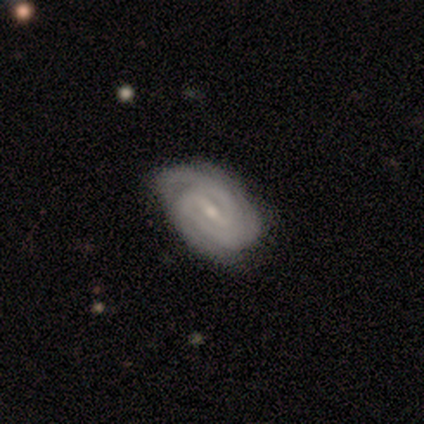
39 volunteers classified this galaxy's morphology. Q: Smooth or featured?
A: featured or disk (87%); runner-up: smooth (8%)
Q: Edge-on disk?
A: no (97%); runner-up: yes (3%)
Q: Bar?
A: strong (45%); tied with: weak (45%)
Q: Spiral arms?
A: yes (97%); runner-up: no (3%)
Q: Spiral winding?
A: tight (72%); runner-up: medium (25%)
Q: Spiral arm count?
A: 3 (34%); runner-up: 2 (25%)
Q: Bulge size?
A: small (88%); runner-up: moderate (9%)
Q: Merging?
A: none (76%); runner-up: minor disturbance (16%)